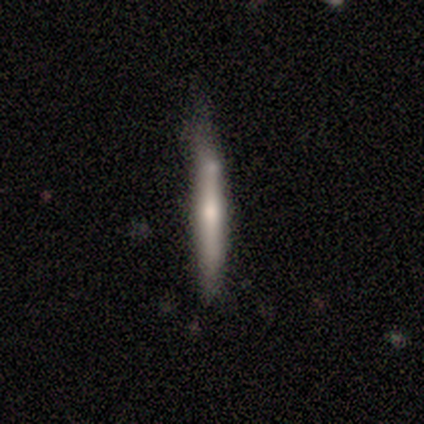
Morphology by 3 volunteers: Smooth or featured: featured or disk — 67% (smooth — 33%)
Edge-on disk: yes — 100%
Edge-on bulge: none — 50% (tied with rounded — 50%)
Merging: minor disturbance — 67% (none — 33%)